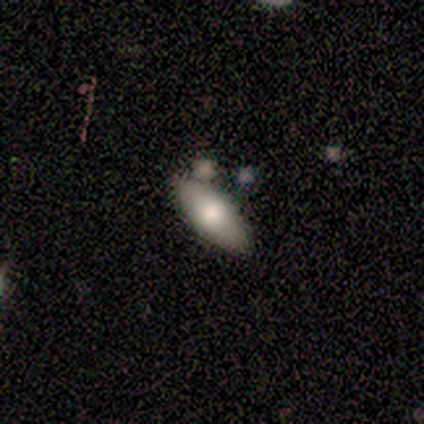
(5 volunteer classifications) A smooth galaxy with no disk features (60%) that is in between round and cigar-shaped (100%). Merging: none (60%).